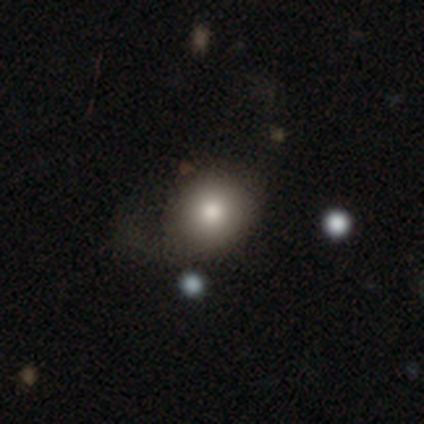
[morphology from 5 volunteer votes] This is clearly a smooth galaxy (80%). How rounded: clearly round (100%). Merging: likely none (75%).